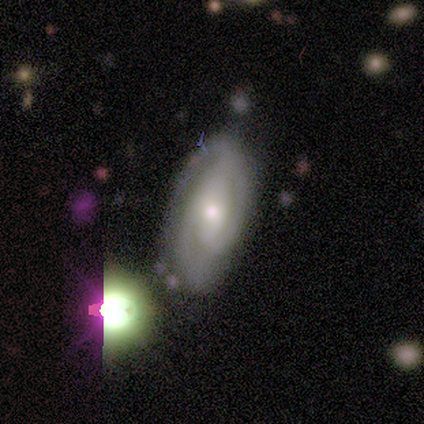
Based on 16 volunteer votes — A featured or disk galaxy (56%) with no bar (75%), 2 (71%) tight (86%) spiral arms (88%) and a moderate central bulge (50%, tied with small).

Vote fractions:
- Smooth or featured? featured or disk: 56% / smooth: 31% / star or artifact: 12%
- Edge-on disk? no: 89% / yes: 11%
- Bar? no: 75% / strong: 12% / weak: 12%
- Spiral arms? yes: 88% / no: 12%
- Spiral winding? tight: 86% / medium: 14% / loose: 0%
- Spiral arm count? 2: 71% / 3: 14% / can't tell: 14% / 1: 0% / 4: 0% / more than 4: 0%
- Bulge size? moderate: 50% (tied) / small: 50% (tied) / dominant: 0% / large: 0% / none: 0%
- Merging? none: 79% / minor disturbance: 14% / major disturbance: 7% / merger: 0%